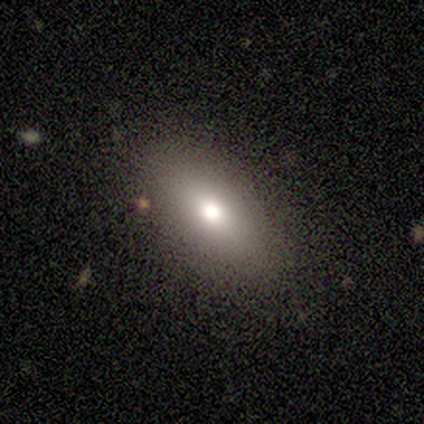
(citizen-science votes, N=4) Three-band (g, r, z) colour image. It shows a smooth galaxy with no disk features (75%) that is in between round and cigar-shaped (100%). Merging: none (100%).